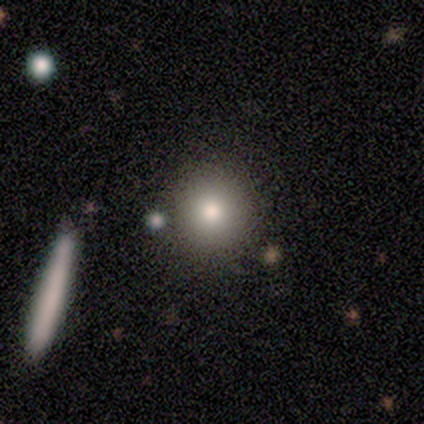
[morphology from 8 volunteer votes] type=smooth (100%); roundness=round (100%); merging=none (88%).